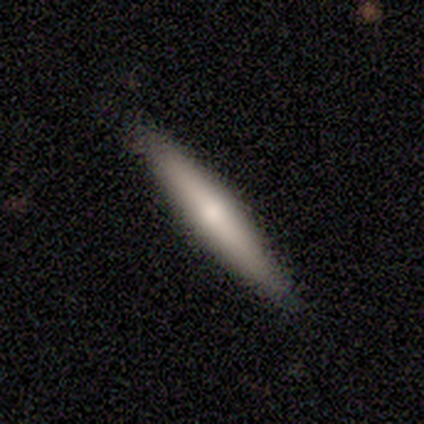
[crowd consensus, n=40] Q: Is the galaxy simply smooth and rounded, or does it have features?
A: smooth — 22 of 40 (55%).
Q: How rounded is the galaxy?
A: cigar-shaped — 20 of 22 (91%).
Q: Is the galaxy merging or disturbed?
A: none — 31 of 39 (79%).